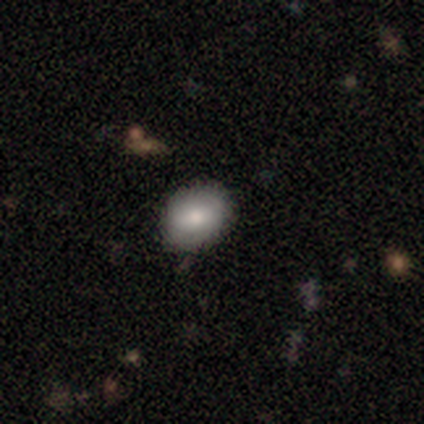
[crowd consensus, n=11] Q: Smooth or featured?
A: smooth (55%); runner-up: featured or disk (27%)
Q: How rounded?
A: round (50%); tied with: in between (50%)
Q: Merging?
A: none (100%)